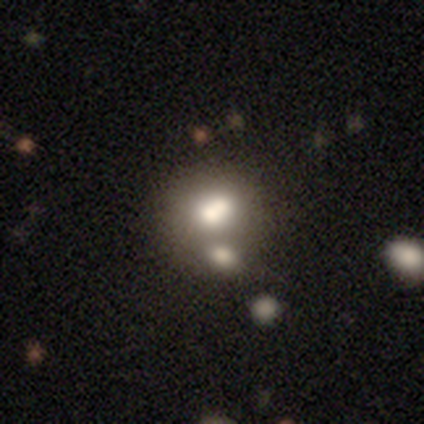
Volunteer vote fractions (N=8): Morphology: type=smooth (62%); roundness=round (80%); merging=none (57%).